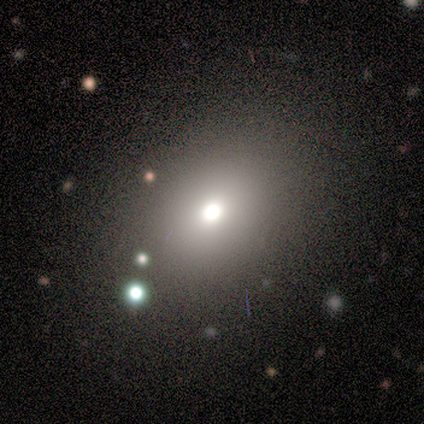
Volunteers were most divided on "how rounded": in between: 67%, round: 33%, cigar-shaped: 0%. More confident: smooth or featured — smooth (75%); merging — none (67%).